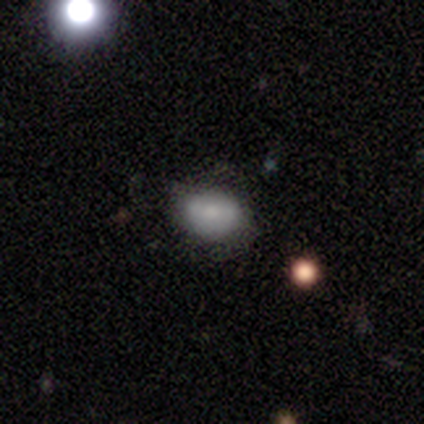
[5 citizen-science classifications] A smooth galaxy with no disk features (40%, tied with featured or disk) that is in between round and cigar-shaped (100%). Merging: none (75%).